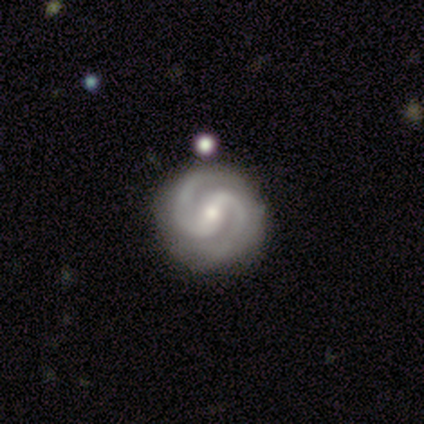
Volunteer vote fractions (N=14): A featured or disk galaxy (93%) with a weak bar (54%), 2 (92%) tight (62%) spiral arms (100%) and a small central bulge (62%). Merging: none (79%).